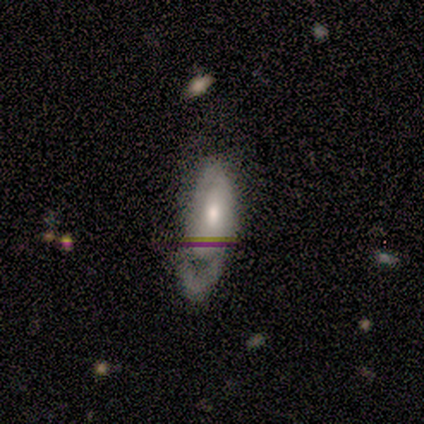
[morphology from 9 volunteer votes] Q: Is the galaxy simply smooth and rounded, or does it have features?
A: smooth — 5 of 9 (56%).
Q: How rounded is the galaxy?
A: in between — 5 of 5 (100%).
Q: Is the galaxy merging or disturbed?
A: none — 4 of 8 (50%).